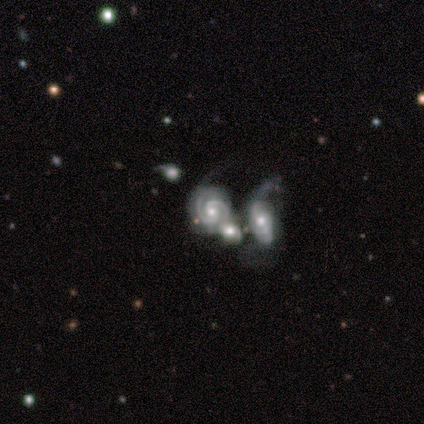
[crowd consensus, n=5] Smooth or featured: featured or disk — 100%
Edge-on disk: no — 100%
Bar: no — 60% (weak — 40%)
Spiral arms: yes — 100%
Spiral winding: tight — 60% (medium — 40%)
Spiral arm count: 2 — 80% (3 — 20%)
Bulge size: moderate — 60% (small — 20%)
Merging: merger — 100%